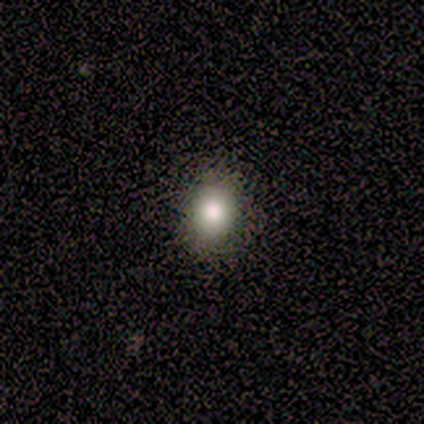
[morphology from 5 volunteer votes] A smooth galaxy with no disk features (60%) that is round (100%). Merging: none (100%).